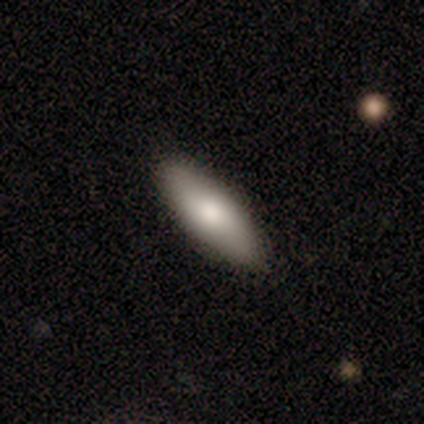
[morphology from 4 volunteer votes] Smooth or featured? 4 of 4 (100%) said smooth. How rounded? 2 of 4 (50%, tied with cigar-shaped) said in between. Merging? 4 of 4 (100%) said none.